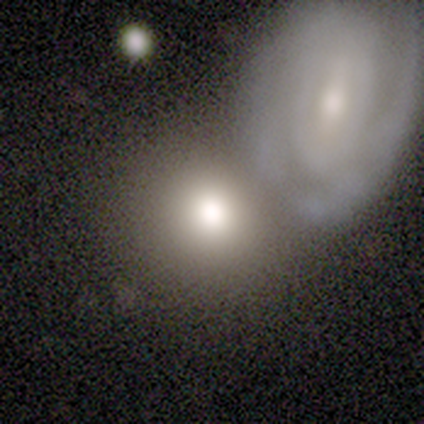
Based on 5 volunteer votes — smooth_or_featured: featured or disk (p=0.80) [alt: star or artifact p=0.20]
disk_edge_on: no (p=1.00)
bar: no (p=0.75) [alt: weak p=0.25]
has_spiral_arms: no (p=0.75) [alt: yes p=0.25]
bulge_size: large (p=0.50) [tied with: moderate p=0.50]
merging: none (p=0.50) [alt: minor disturbance p=0.25]